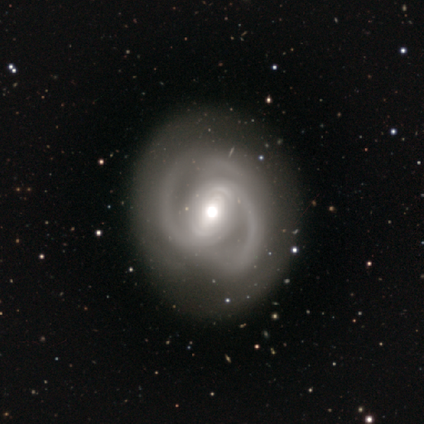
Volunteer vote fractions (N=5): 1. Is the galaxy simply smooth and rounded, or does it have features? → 100% featured or disk, 0% smooth, 0% star or artifact.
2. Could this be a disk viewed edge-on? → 100% no, 0% yes.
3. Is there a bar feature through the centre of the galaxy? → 60% weak, 20% strong, 20% no.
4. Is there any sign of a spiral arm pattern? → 100% yes, 0% no.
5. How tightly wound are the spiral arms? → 60% medium, 40% tight, 0% loose.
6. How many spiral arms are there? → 80% 2, 20% 3, 0% 1, 0% 4, 0% more than 4, 0% can't tell.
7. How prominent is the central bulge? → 60% large, 40% moderate, 0% dominant, 0% small, 0% none.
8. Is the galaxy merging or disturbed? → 80% none, 20% minor disturbance, 0% major disturbance, 0% merger.